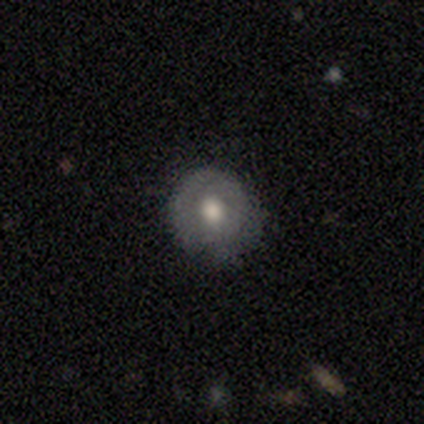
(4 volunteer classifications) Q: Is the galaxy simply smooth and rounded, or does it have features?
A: smooth — 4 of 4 (100%).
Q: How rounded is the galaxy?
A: round — 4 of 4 (100%).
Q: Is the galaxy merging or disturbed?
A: none — 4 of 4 (100%).